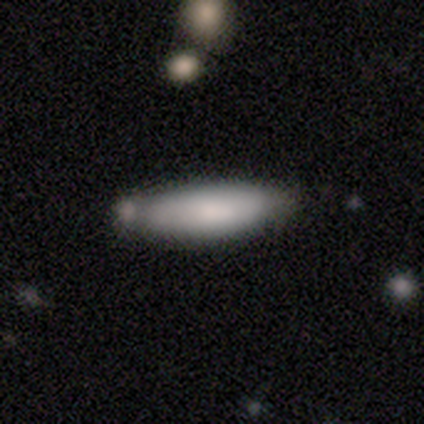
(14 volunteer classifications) smooth_or_featured: smooth (p=0.79) [alt: featured or disk p=0.21]
how_rounded: cigar-shaped (p=0.64) [alt: in between p=0.36]
merging: none (p=0.43) [alt: minor disturbance p=0.36]